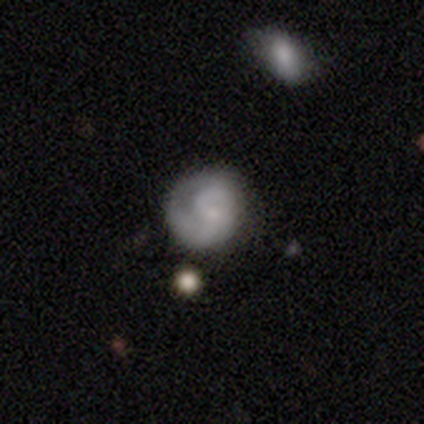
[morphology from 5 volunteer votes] Q: Smooth or featured?
A: featured or disk (60%); runner-up: smooth (40%)
Q: Edge-on disk?
A: no (100%)
Q: Bar?
A: strong (33%); tied with: weak (33%); no (33%)
Q: Spiral arms?
A: yes (100%)
Q: Spiral winding?
A: tight (33%); tied with: medium (33%); loose (33%)
Q: Spiral arm count?
A: can't tell (67%); runner-up: 2 (33%)
Q: Bulge size?
A: moderate (33%); tied with: small (33%); none (33%)
Q: Merging?
A: none (100%)